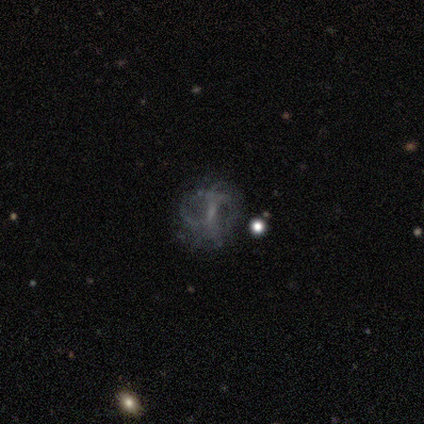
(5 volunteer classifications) Morphology: type=smooth (60%); roundness=round (100%); merging=none (75%).